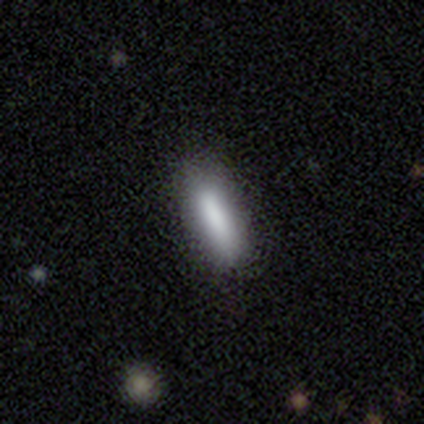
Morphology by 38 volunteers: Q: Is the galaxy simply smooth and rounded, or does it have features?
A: smooth — 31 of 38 (82%).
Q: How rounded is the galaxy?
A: in between — 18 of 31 (58%).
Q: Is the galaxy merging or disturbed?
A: none — 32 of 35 (91%).